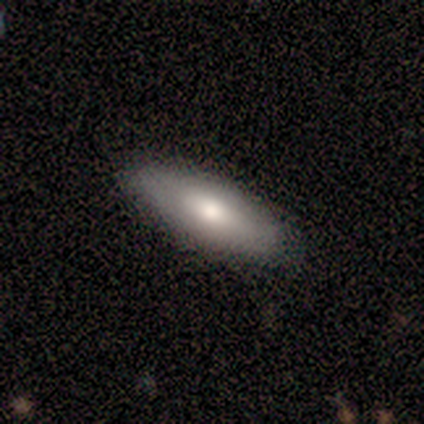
A smooth galaxy with no disk features (60%) that is in between round and cigar-shaped (67%). Merging: none (80%).